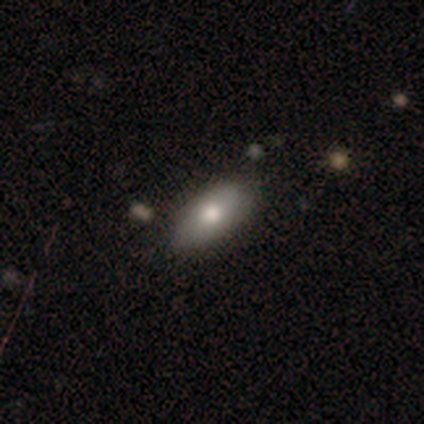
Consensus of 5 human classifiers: A smooth galaxy with no disk features (60%) that is in between round and cigar-shaped (100%). Merging: minor disturbance (60%).